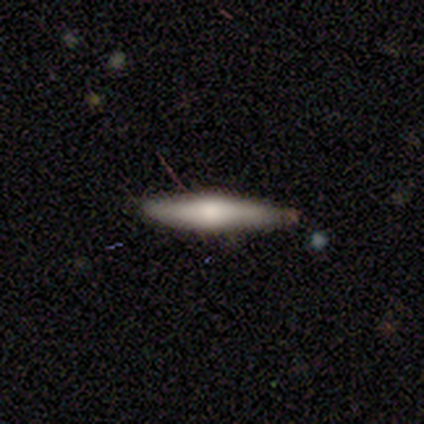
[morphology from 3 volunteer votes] Smooth or featured?
  - smooth: 67% *
  - featured or disk: 33%
  - star or artifact: 0%
How rounded?
  - cigar-shaped: 100% *
  - round: 0%
  - in between: 0%
Merging?
  - none: 100% *
  - minor disturbance: 0%
  - major disturbance: 0%
  - merger: 0%